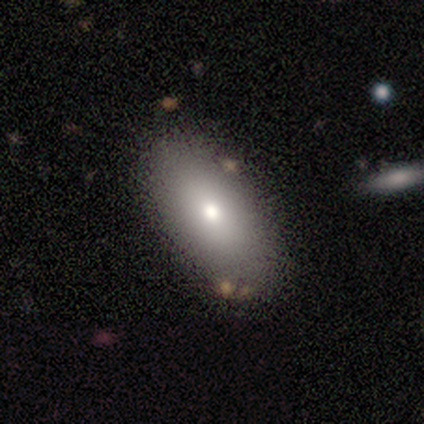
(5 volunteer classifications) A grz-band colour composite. It shows a smooth galaxy with no disk features (80%) that is in between round and cigar-shaped (75%). Merging: none (80%).